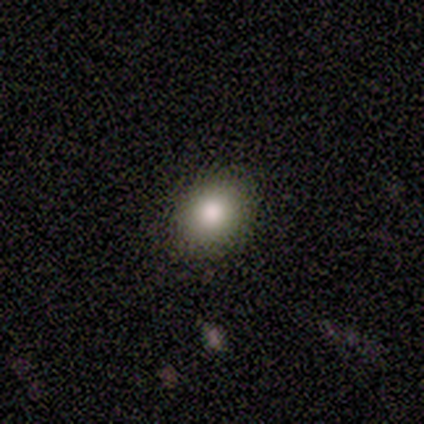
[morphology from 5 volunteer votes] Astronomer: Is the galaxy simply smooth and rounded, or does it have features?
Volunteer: smooth — 80%.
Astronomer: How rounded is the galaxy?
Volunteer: round — 75%.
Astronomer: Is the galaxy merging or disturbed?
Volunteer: none — 100%.